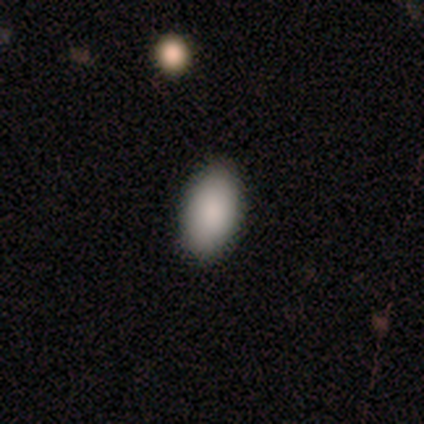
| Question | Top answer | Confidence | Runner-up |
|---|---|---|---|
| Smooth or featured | smooth | 100% | — |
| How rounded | in between | 80% | round (20%) |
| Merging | none | 100% | — |